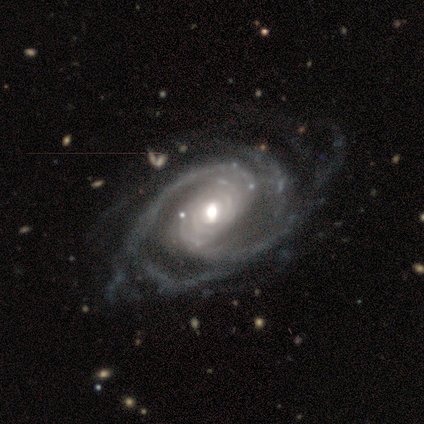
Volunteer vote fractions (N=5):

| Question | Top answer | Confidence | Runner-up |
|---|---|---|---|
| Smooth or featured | featured or disk | 80% | star or artifact (20%) |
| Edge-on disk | no | 100% | — |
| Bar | strong | 50% | weak (25%) |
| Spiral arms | yes | 100% | — |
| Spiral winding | tight | 50% | tied: medium (50%) |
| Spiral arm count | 2 | 50% | tied: more than 4 (50%) |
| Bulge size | moderate | 50% | large (25%) |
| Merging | none | 50% | minor disturbance (25%) |